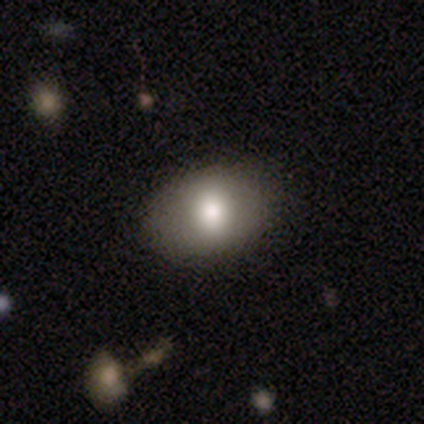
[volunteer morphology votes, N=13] smooth 92%, featured or disk 8%, star or artifact 0%. Down the decision tree: how rounded — in between (83%); merging — none (100%).